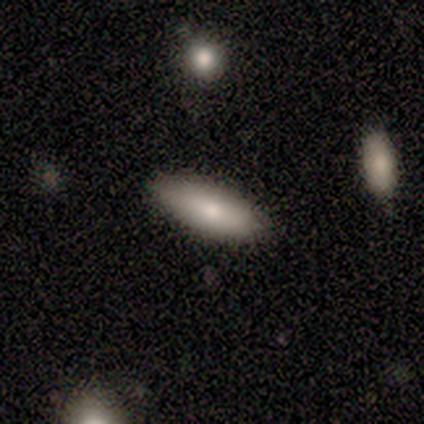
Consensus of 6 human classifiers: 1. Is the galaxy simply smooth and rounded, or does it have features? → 83% smooth, 17% featured or disk, 0% star or artifact.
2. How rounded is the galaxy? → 100% in between, 0% round, 0% cigar-shaped.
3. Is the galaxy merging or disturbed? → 100% none, 0% minor disturbance, 0% major disturbance, 0% merger.